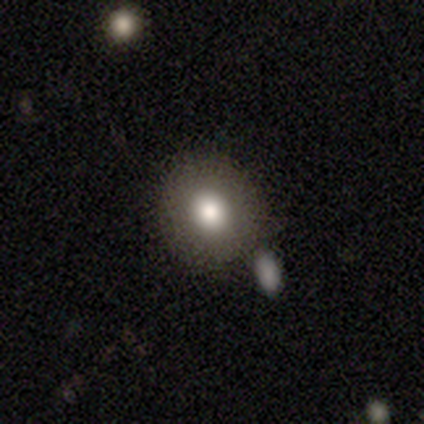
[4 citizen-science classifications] Morphology: type=smooth (100%); roundness=round (100%); merging=none (100%).